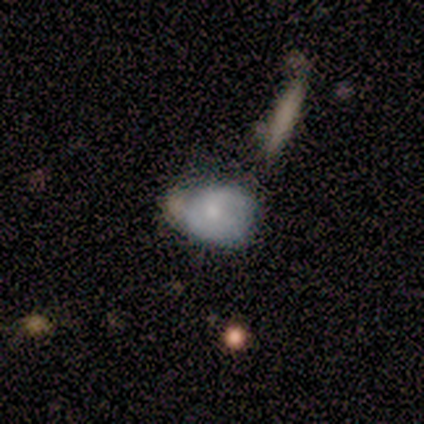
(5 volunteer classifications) smooth-or-featured: smooth: 80% | featured or disk: 20% | star or artifact: 0%
  how-rounded: round: 75% | in between: 25% | cigar-shaped: 0%
  merging: none: 60% | minor disturbance: 40% | major disturbance: 0% | merger: 0%